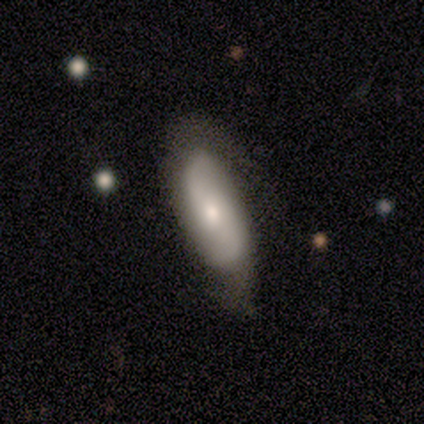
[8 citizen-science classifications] A featured or disk galaxy (75%) with no bar (60%), 2 (80%) loose (60%) spiral arms (100%) and a moderate central bulge (60%).

Vote fractions:
- Smooth or featured? featured or disk: 75% / smooth: 25% / star or artifact: 0%
- Edge-on disk? no: 83% / yes: 17%
- Bar? no: 60% / weak: 40% / strong: 0%
- Spiral arms? yes: 100% / no: 0%
- Spiral winding? loose: 60% / tight: 40% / medium: 0%
- Spiral arm count? 2: 80% / can't tell: 20% / 1: 0% / 3: 0% / 4: 0% / more than 4: 0%
- Bulge size? moderate: 60% / small: 40% / dominant: 0% / large: 0% / none: 0%
- Merging? none: 100% / minor disturbance: 0% / major disturbance: 0% / merger: 0%